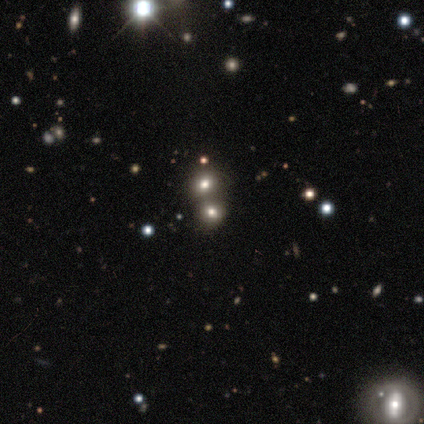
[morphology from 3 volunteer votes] This appears to be a smooth galaxy with no disk features (67%) that is round (100%). Merging: none (50%, tied with merger).